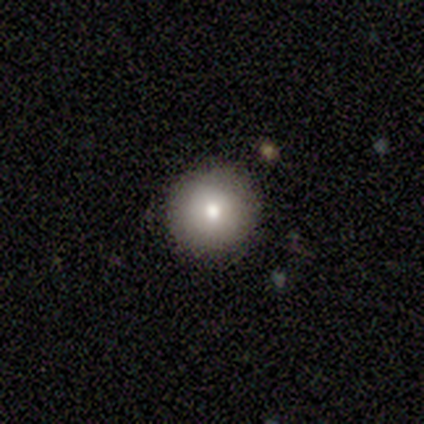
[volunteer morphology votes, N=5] This is clearly a smooth galaxy (80%). How rounded: clearly round (100%). Merging: clearly none (100%).